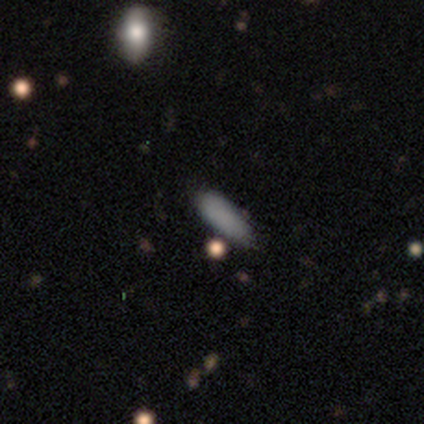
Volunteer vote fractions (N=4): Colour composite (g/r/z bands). It shows a smooth galaxy with no disk features (100%) that is in between round and cigar-shaped (50%, tied with cigar-shaped). Merging: none (50%).